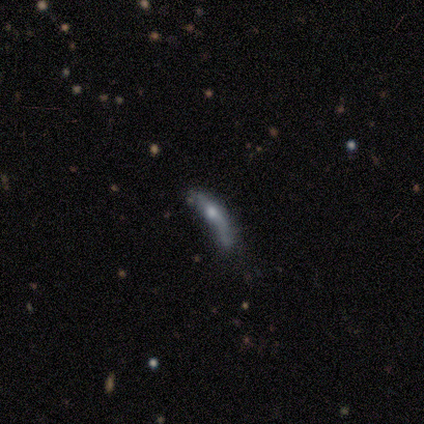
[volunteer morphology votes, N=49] type=featured or disk (65%); edge-on=yes (59%); edge-on bulge=rounded (74%); merging=minor disturbance (47%).